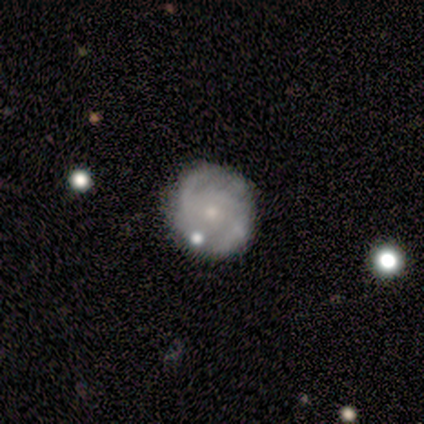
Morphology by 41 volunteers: A featured or disk galaxy (71%) with no bar (82%), 2 (39%) tight (52%) spiral arms (82%) and a small central bulge (82%).

Vote fractions:
- Smooth or featured? featured or disk: 71% / smooth: 29% / star or artifact: 0%
- Edge-on disk? no: 97% / yes: 3%
- Bar? no: 82% / weak: 18% / strong: 0%
- Spiral arms? yes: 82% / no: 18%
- Spiral winding? tight: 52% / medium: 30% / loose: 17%
- Spiral arm count? 2: 39% / can't tell: 35% / 1: 9% / 3: 9% / 4: 4% / more than 4: 4%
- Bulge size? small: 82% / moderate: 18% / dominant: 0% / large: 0% / none: 0%
- Merging? none: 78% / minor disturbance: 15% / major disturbance: 5% / merger: 2%